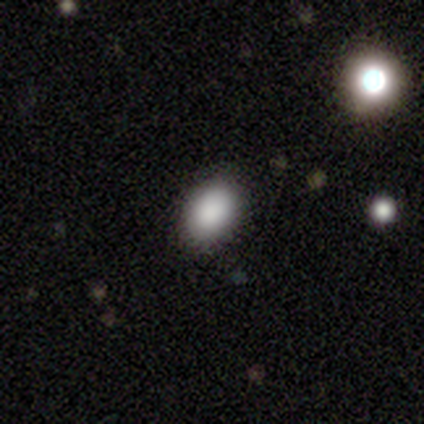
Morphology: type=smooth (85%); roundness=in between (82%); merging=none (83%).